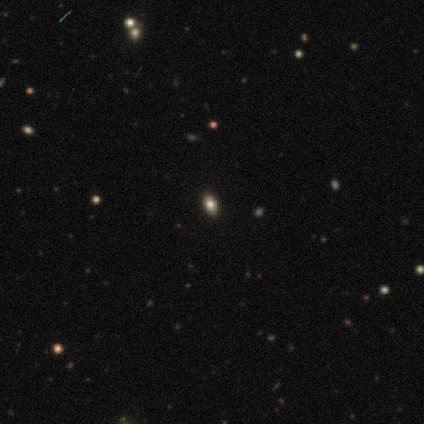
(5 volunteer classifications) This appears to be a smooth galaxy with no disk features (60%) that is in between round and cigar-shaped (100%). Merging: none (100%).